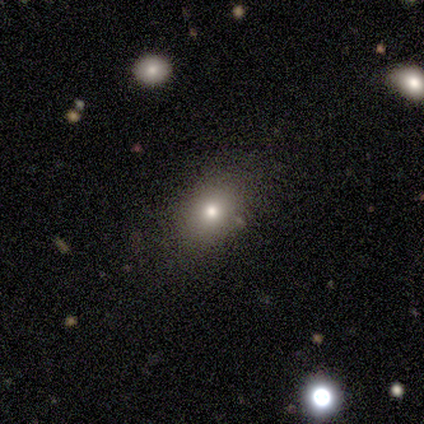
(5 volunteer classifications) Smooth or featured: smooth — 40% (tied with star or artifact — 40%)
How rounded: round — 50% (tied with in between — 50%)
Merging: none — 67% (minor disturbance — 33%)